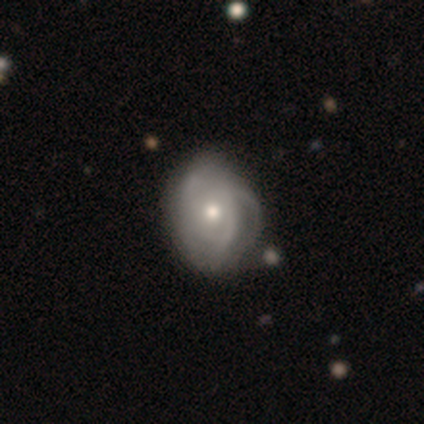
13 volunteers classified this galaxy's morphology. type=featured or disk (69%); edge-on=no (89%); bar=no (75%); spiral arms=yes (100%); winding=tight (75%); arm count=can't tell (50%); bulge=small (62%); merging=none (58%).